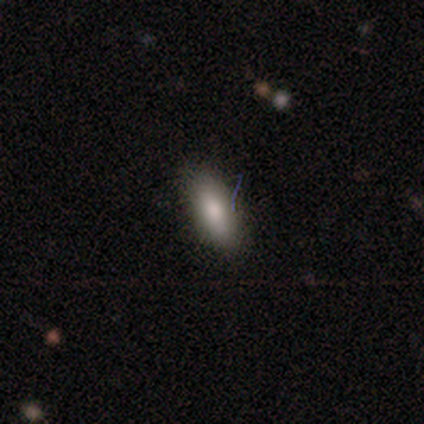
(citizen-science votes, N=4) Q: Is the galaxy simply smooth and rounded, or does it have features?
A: smooth — 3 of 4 (75%).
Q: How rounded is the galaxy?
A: in between — 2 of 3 (67%).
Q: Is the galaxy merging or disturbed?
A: none — 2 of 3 (67%).